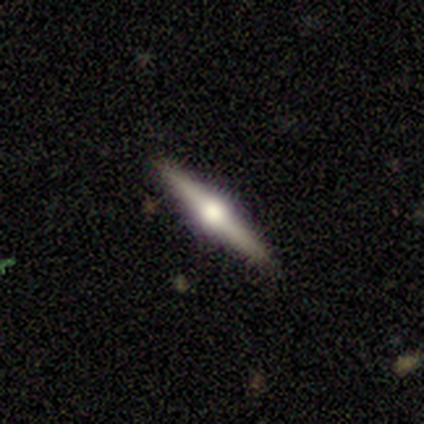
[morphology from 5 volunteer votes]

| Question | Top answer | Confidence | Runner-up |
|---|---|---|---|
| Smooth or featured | featured or disk | 100% | — |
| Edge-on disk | yes | 100% | — |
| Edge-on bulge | rounded | 100% | — |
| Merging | none | 100% | — |